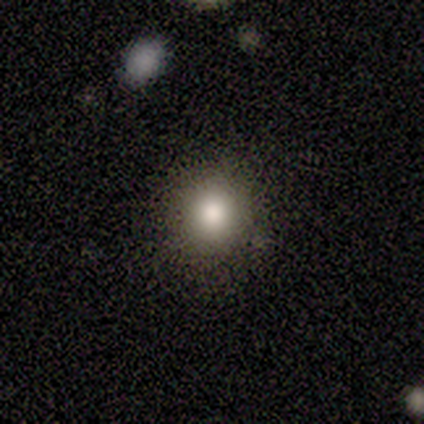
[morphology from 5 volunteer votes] Smooth or featured? 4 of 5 (80%) said smooth. How rounded? 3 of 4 (75%) said in between. Merging? 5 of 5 (100%) said none.